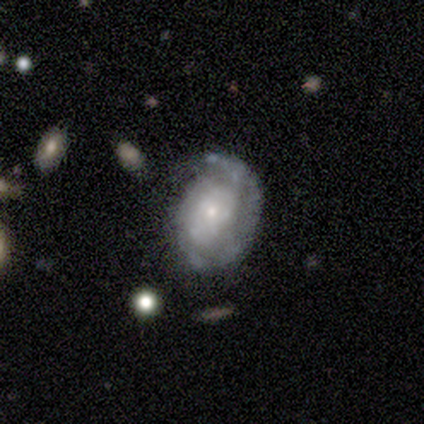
featured or disk 100%, smooth 0%, star or artifact 0%. Down the decision tree: edge-on disk — no (100%); bar — weak (80%); spiral arms — yes (100%); spiral arm count — 1 (60%); spiral winding — tight (60%); bulge size — moderate (40%, tied with small); merging — none (80%).